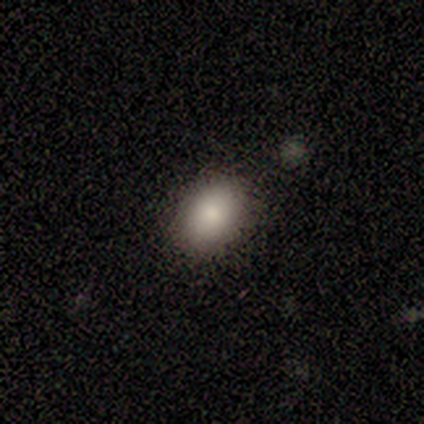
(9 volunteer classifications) Morphology: type=smooth (89%); roundness=in between (50%); merging=none (78%).